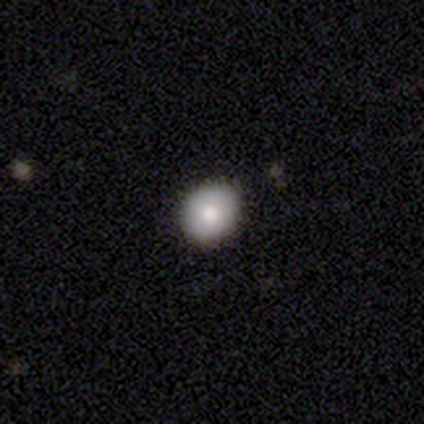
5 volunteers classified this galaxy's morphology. This is marginally a smooth galaxy (40%, tied with star or artifact). How rounded: clearly round (100%). Merging: clearly none (100%).